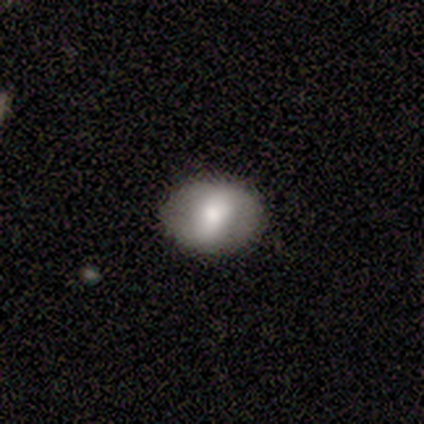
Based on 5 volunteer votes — Smooth or featured? featured or disk (80%)
Edge-on disk? no (100%)
Bar? strong (50%, tied with no)
Spiral arms? yes (50%, tied with no)
Spiral winding? medium (50%, tied with loose)
Spiral arm count? can't tell (100%)
Bulge size? large (50%, tied with small)
Merging? none (80%)